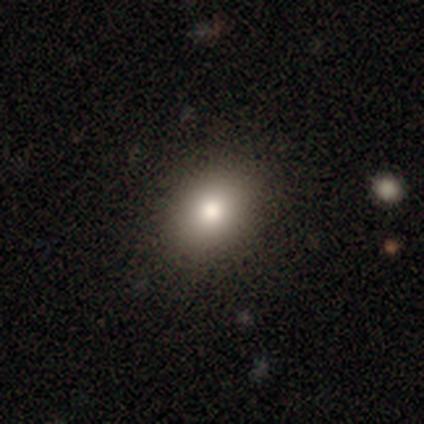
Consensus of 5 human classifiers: smooth 80%, featured or disk 20%, star or artifact 0%. Down the decision tree: how rounded — round (50%, tied with in between); merging — none (100%).